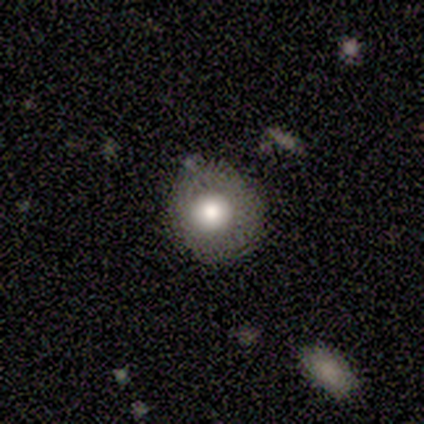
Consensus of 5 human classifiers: smooth 60%, featured or disk 20%, star or artifact 20%. Down the decision tree: how rounded — round (100%); merging — none (75%).